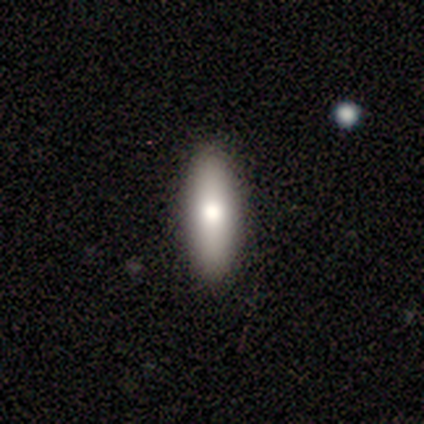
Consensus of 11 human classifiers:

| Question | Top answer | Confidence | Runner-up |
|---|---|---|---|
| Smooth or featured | smooth | 82% | featured or disk (9%) |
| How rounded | cigar-shaped | 56% | in between (44%) |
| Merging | none | 80% | minor disturbance (10%) |